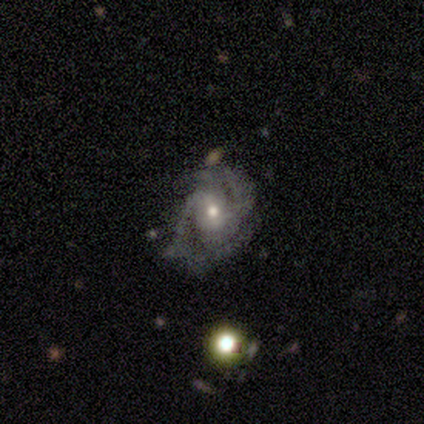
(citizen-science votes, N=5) This is clearly a featured or disk galaxy (100%). It is clearly not viewed edge-on (100%). Bar: clearly no (80%). Spiral arm pattern: clearly yes (100%). Spiral arm count: marginally 2 (40%). Spiral winding: clearly medium (100%). Central bulge: clearly moderate (80%). Merging: clearly none (80%).